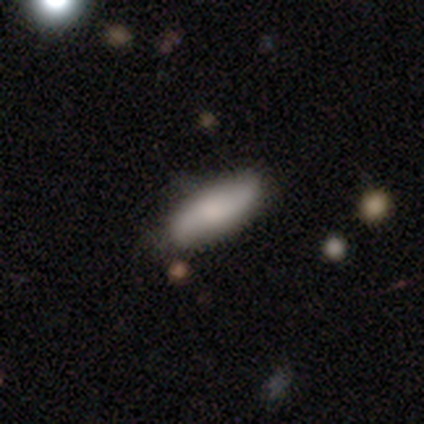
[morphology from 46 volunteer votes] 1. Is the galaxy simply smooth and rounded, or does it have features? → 78% smooth, 17% featured or disk, 4% star or artifact.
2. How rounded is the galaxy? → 64% in between, 36% cigar-shaped, 0% round.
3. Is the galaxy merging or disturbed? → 77% none, 18% minor disturbance, 2% major disturbance, 2% merger.